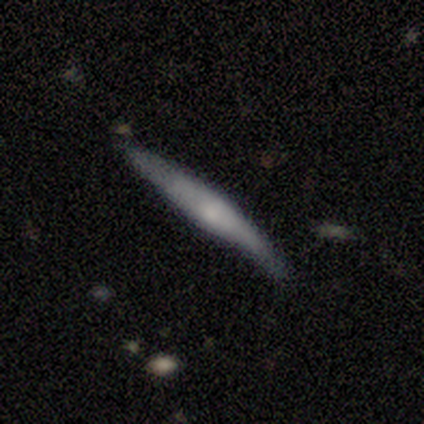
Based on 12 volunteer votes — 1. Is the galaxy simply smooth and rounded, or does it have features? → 67% featured or disk, 33% smooth, 0% star or artifact.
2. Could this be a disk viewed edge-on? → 100% yes, 0% no.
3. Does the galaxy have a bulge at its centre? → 50% rounded, 38% none, 12% boxy.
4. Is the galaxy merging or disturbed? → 67% none, 33% minor disturbance, 0% major disturbance, 0% merger.